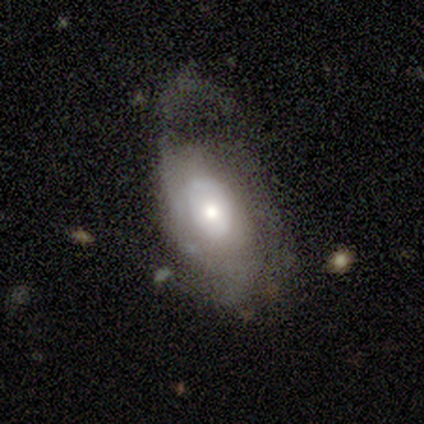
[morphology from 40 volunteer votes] type=featured or disk (60%); edge-on=no (100%); bar=no (88%); spiral arms=yes (79%); winding=medium (42%); arm count=can't tell (47%); bulge=moderate (50%); merging=major disturbance (43%).